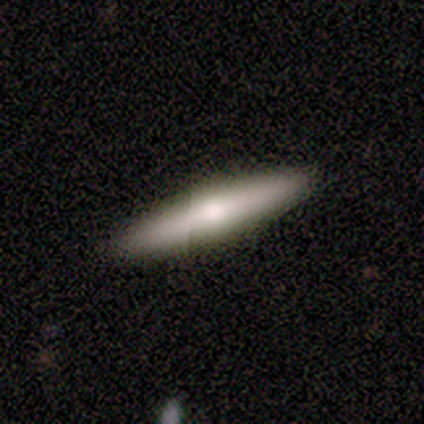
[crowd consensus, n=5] Overall: smooth (100%). How rounded: cigar-shaped (100%). Merging: none (100%).